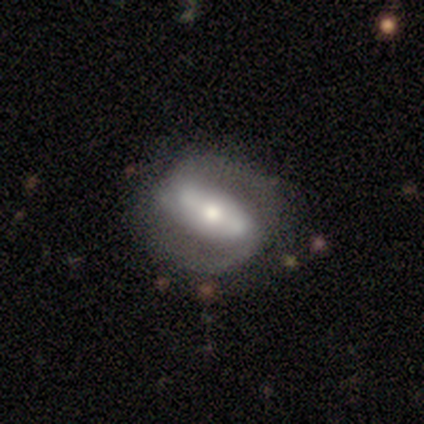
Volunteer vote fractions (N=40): smooth_or_featured: featured or disk (p=0.88) [alt: smooth p=0.10]
disk_edge_on: no (p=0.97) [alt: yes p=0.03]
bar: strong (p=0.71) [alt: weak p=0.18]
has_spiral_arms: yes (p=0.91) [alt: no p=0.09]
spiral_winding: tight (p=0.42) [alt: medium p=0.29]
spiral_arm_count: 2 (p=0.90) [alt: 3 p=0.06]
bulge_size: moderate (p=0.59) [alt: small p=0.24]
merging: none (p=0.54) [alt: minor disturbance p=0.18]